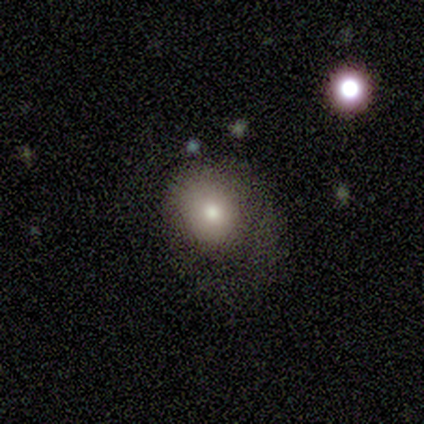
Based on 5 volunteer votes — Morphology: type=smooth (80%); roundness=round (50%, tied with in between); merging=none (50%).